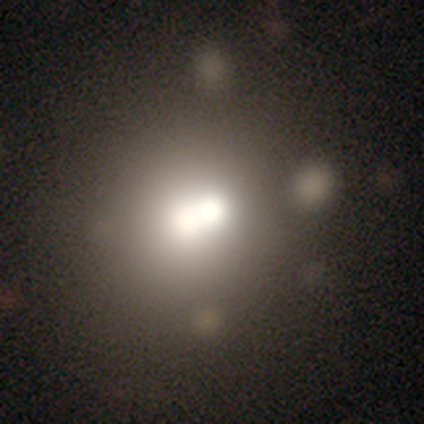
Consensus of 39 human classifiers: Smooth or featured? smooth (64%)
How rounded? round (76%)
Merging? merger (58%)